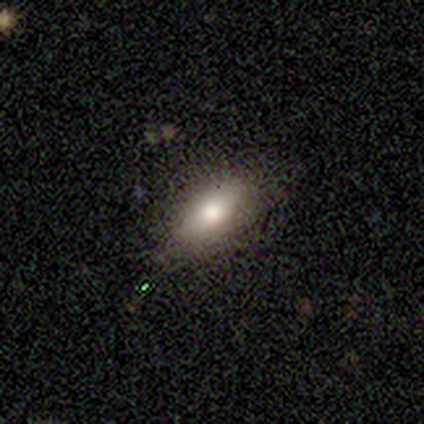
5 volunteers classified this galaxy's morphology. smooth 60%, featured or disk 20%, star or artifact 20%. Down the decision tree: how rounded — in between (67%); merging — none (75%).